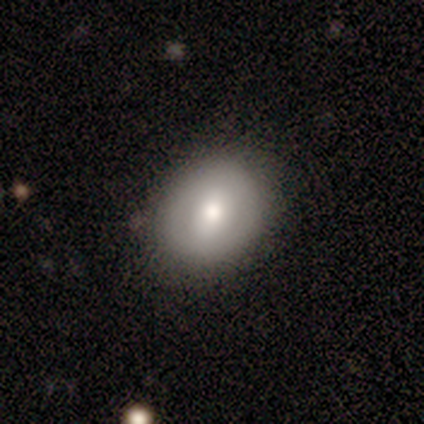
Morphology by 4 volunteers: smooth_or_featured: smooth (p=0.50) [tied with: featured or disk p=0.50]
how_rounded: round (p=1.00)
merging: none (p=1.00)